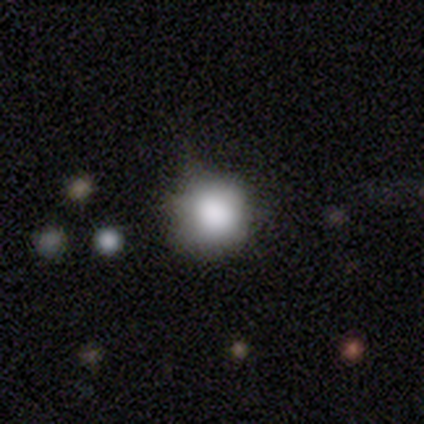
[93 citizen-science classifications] Morphology: type=smooth (83%); roundness=round (88%); merging=none (56%).